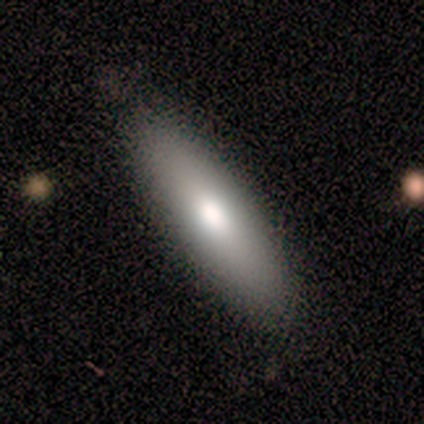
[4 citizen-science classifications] smooth-or-featured: smooth: 100% | featured or disk: 0% | star or artifact: 0%
  how-rounded: in between: 75% | cigar-shaped: 25% | round: 0%
  merging: none: 100% | minor disturbance: 0% | major disturbance: 0% | merger: 0%